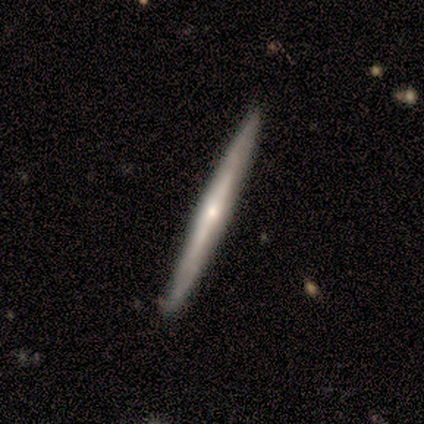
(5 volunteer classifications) Smooth or featured?
  - featured or disk: 60% *
  - smooth: 40%
  - star or artifact: 0%
Edge-on disk?
  - yes: 100% *
  - no: 0%
Edge-on bulge?
  - rounded: 100% *
  - boxy: 0%
  - none: 0%
Merging?
  - none: 100% *
  - minor disturbance: 0%
  - major disturbance: 0%
  - merger: 0%